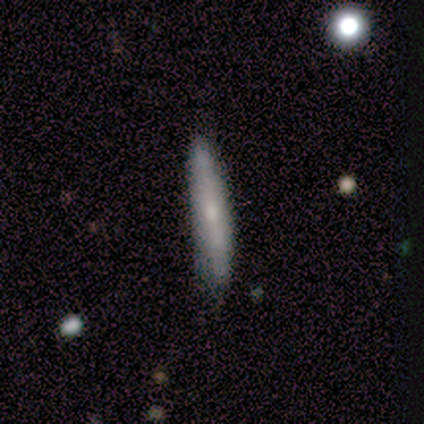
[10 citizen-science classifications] A smooth galaxy with no disk features (70%) that is cigar-shaped (86%). Merging: none (80%).